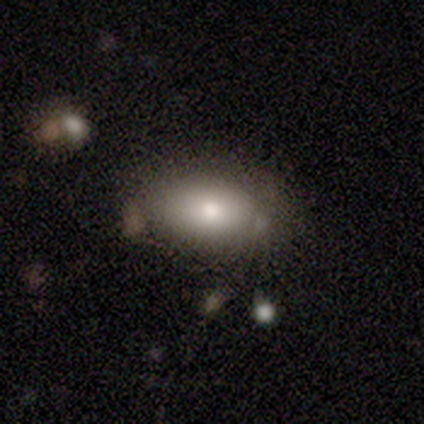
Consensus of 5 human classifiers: A smooth galaxy with no disk features (80%) that is in between round and cigar-shaped (75%). Merging: none (60%).